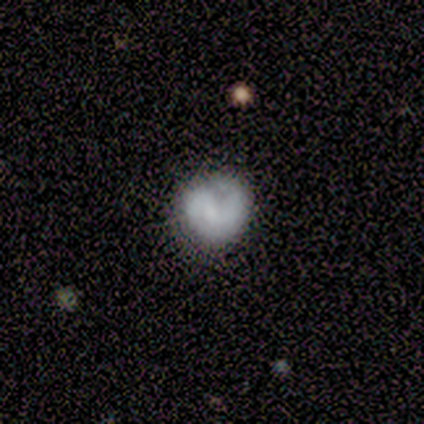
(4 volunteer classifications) smooth_or_featured: featured or disk (p=0.50) [alt: smooth p=0.25]
disk_edge_on: no (p=1.00)
bar: weak (p=1.00)
has_spiral_arms: yes (p=1.00)
spiral_winding: tight (p=1.00)
spiral_arm_count: 1 (p=0.50) [tied with: 2 p=0.50]
bulge_size: none (p=1.00)
merging: none (p=1.00)